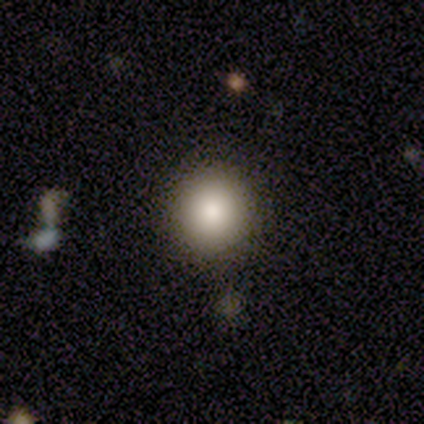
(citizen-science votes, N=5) Smooth or featured: smooth — 60% (featured or disk — 20%)
How rounded: round — 100%
Merging: none — 100%